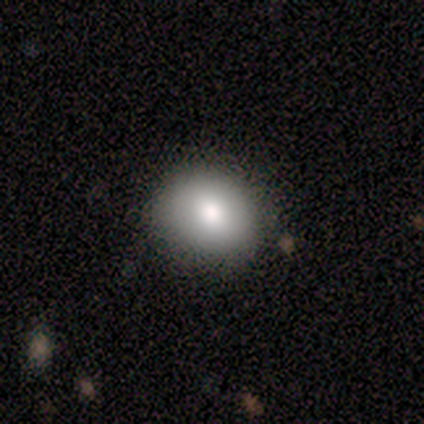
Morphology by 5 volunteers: Smooth or featured?
  - smooth: 80% *
  - featured or disk: 20%
  - star or artifact: 0%
How rounded?
  - round: 75% *
  - in between: 25%
  - cigar-shaped: 0%
Merging?
  - none: 80% *
  - minor disturbance: 20%
  - major disturbance: 0%
  - merger: 0%